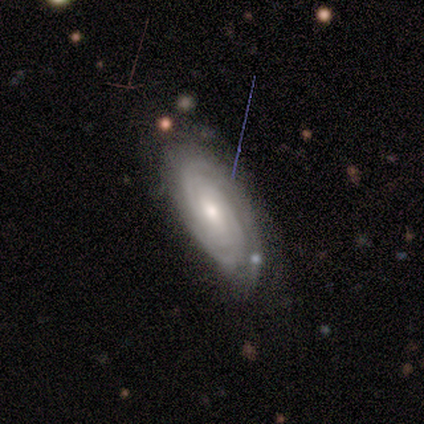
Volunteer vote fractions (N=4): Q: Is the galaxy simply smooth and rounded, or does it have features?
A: featured or disk — 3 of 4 (75%).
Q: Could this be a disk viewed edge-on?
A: no — 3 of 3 (100%).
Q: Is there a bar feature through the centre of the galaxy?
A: no — 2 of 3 (67%).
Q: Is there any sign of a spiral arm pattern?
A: yes — 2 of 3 (67%).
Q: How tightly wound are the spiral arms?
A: tight — 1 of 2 (50%, tied with medium).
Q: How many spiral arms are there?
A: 2 — 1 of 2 (50%, tied with can't tell).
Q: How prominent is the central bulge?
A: moderate — 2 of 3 (67%).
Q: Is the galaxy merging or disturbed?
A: none — 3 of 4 (75%).